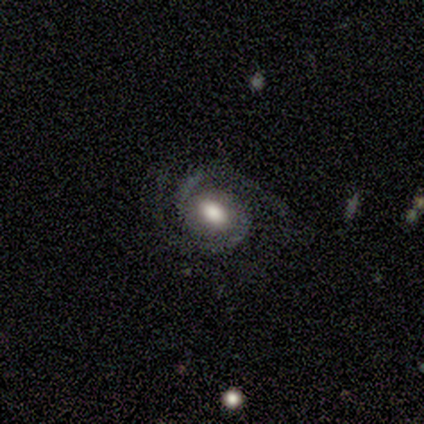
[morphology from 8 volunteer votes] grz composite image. It shows a featured or disk galaxy (100%) with no bar (62%), 2 (88%) tight (50%) spiral arms (100%) and a large central bulge (50%). Merging: none (100%).